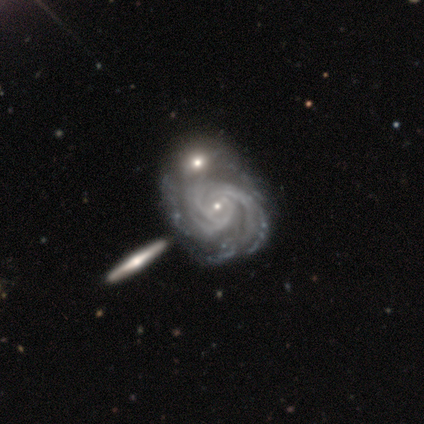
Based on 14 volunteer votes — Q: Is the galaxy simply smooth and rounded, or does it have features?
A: featured or disk — 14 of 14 (100%).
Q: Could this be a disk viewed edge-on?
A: no — 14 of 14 (100%).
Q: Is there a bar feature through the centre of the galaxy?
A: no — 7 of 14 (50%).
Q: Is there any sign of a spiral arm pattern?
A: yes — 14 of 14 (100%).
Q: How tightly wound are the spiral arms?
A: tight — 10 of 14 (71%).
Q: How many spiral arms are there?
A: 3 — 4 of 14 (29%, tied with can't tell).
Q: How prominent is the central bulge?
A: small — 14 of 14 (100%).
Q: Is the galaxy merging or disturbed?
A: merger — 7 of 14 (50%).